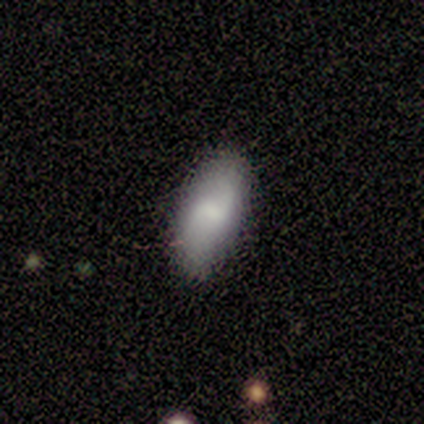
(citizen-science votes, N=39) Smooth or featured? smooth (69%)
How rounded? in between (89%)
Merging? none (74%)